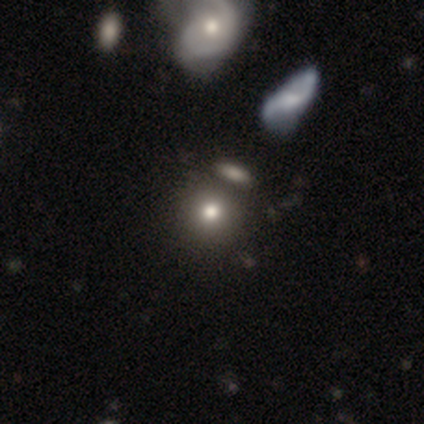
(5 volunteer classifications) A smooth galaxy with no disk features (60%) that is round (67%).

Vote fractions:
- Smooth or featured? smooth: 60% / featured or disk: 40% / star or artifact: 0%
- How rounded? round: 67% / in between: 33% / cigar-shaped: 0%
- Merging? none: 60% / minor disturbance: 40% / major disturbance: 0% / merger: 0%